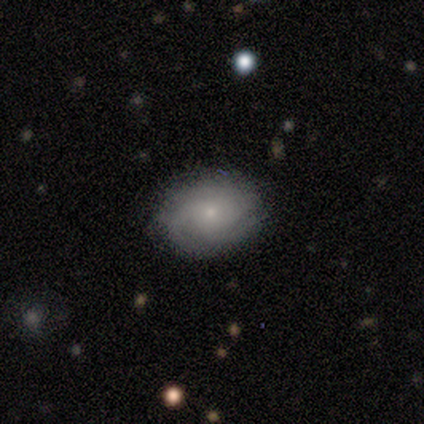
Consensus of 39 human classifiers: Q: Smooth or featured?
A: featured or disk (51%); runner-up: smooth (38%)
Q: Edge-on disk?
A: no (100%)
Q: Bar?
A: no (90%); runner-up: weak (10%)
Q: Spiral arms?
A: yes (85%); runner-up: no (15%)
Q: Spiral winding?
A: tight (71%); runner-up: medium (24%)
Q: Spiral arm count?
A: 3 (41%); runner-up: can't tell (35%)
Q: Bulge size?
A: small (75%); runner-up: moderate (20%)
Q: Merging?
A: none (83%); runner-up: minor disturbance (11%)